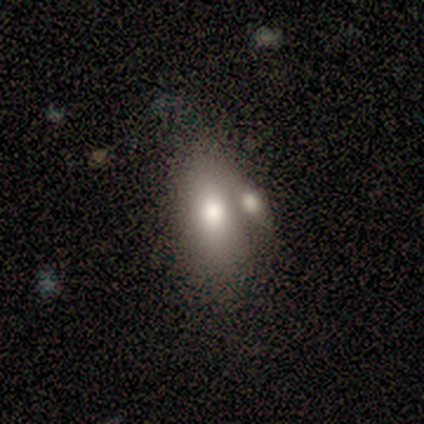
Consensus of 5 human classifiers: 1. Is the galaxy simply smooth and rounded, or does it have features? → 60% smooth, 40% star or artifact, 0% featured or disk.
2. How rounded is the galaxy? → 67% in between, 33% round, 0% cigar-shaped.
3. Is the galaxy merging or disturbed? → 33% minor disturbance (tied), 33% major disturbance (tied), 33% merger (tied), 0% none.